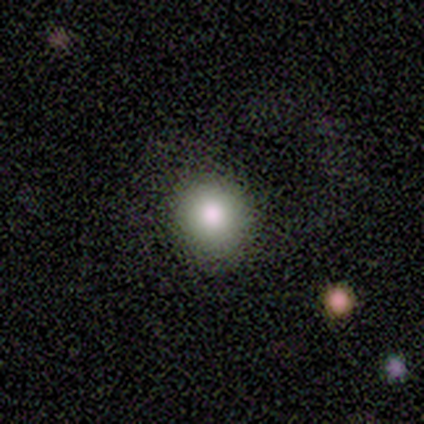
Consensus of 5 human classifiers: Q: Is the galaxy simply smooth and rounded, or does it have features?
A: smooth — 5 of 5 (100%).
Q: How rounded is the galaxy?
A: round — 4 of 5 (80%).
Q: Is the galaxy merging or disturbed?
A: none — 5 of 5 (100%).